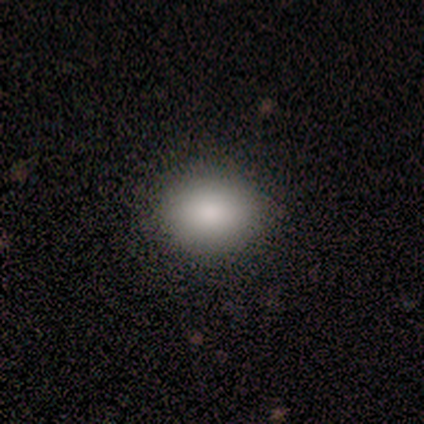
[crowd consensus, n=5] Q: Smooth or featured?
A: smooth (80%); runner-up: star or artifact (20%)
Q: How rounded?
A: round (50%); tied with: in between (50%)
Q: Merging?
A: none (100%)